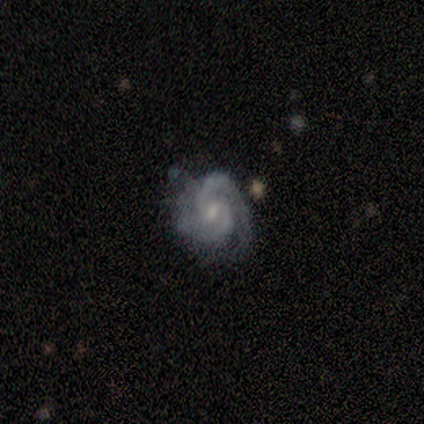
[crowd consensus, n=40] Smooth or featured?
  - featured or disk: 90% *
  - smooth: 5%
  - star or artifact: 5%
Edge-on disk?
  - no: 97% *
  - yes: 3%
Bar?
  - no: 54% *
  - weak: 43%
  - strong: 3%
Spiral arms?
  - yes: 97% *
  - no: 3%
Spiral winding?
  - tight: 53% *
  - medium: 35%
  - loose: 12%
Spiral arm count?
  - 2: 79% *
  - can't tell: 12%
  - 1: 6%
  - 3: 3%
  - 4: 0%
  - more than 4: 0%
Bulge size?
  - small: 46% *
  - moderate: 37%
  - none: 17%
  - dominant: 0%
  - large: 0%
Merging?
  - none: 63% *
  - minor disturbance: 18%
  - major disturbance: 11%
  - merger: 8%